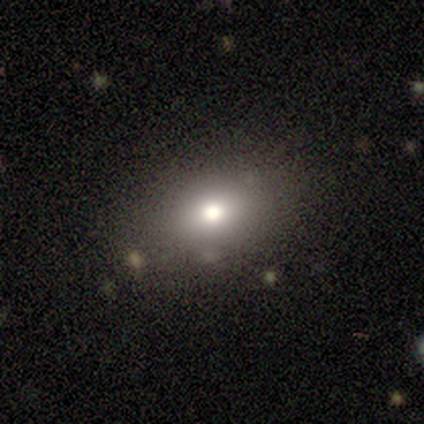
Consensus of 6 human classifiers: Smooth or featured: smooth — 83% (star or artifact — 17%)
How rounded: in between — 80% (round — 20%)
Merging: none — 100%